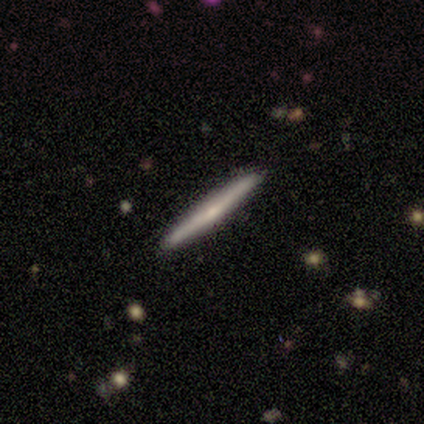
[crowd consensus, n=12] This appears to be a featured or disk galaxy (50%) viewed edge-on (100%) with no central bulge (67%). Merging: none (100%).